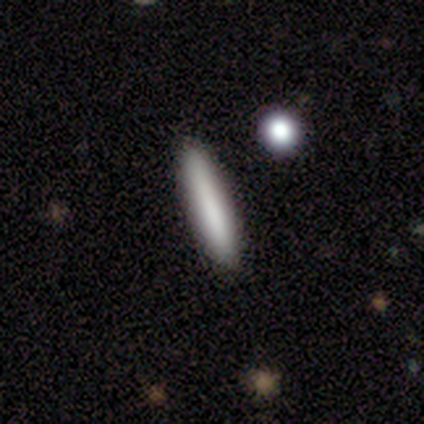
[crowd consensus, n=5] This is clearly a smooth galaxy (80%). How rounded: clearly cigar-shaped (100%). Merging: likely none (75%).